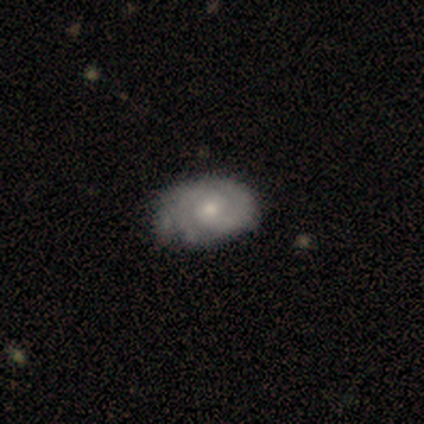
This appears to be a featured or disk galaxy (83%) with no bar (80%), 3 (60%) tight (80%) spiral arms (100%) and a moderate central bulge (80%). Merging: none (100%).